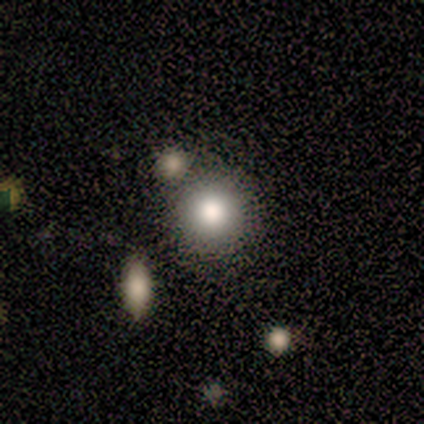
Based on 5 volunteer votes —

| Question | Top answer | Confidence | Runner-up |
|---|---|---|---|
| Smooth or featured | smooth | 80% | star or artifact (20%) |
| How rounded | round | 100% | — |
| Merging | none | 75% | merger (25%) |